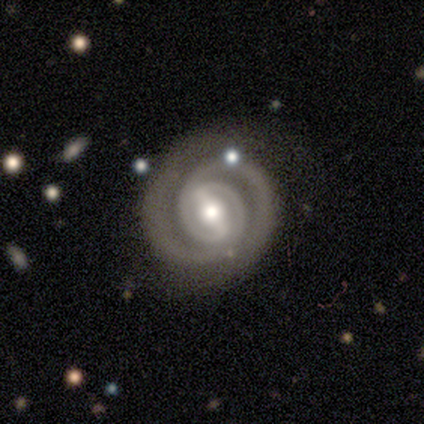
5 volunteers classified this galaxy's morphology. A featured or disk galaxy (100%) with a strong bar (80%), 2 (100%) tight (80%) spiral arms (100%) and a moderate central bulge (80%).

Vote fractions:
- Smooth or featured? featured or disk: 100% / smooth: 0% / star or artifact: 0%
- Edge-on disk? no: 100% / yes: 0%
- Bar? strong: 80% / weak: 20% / no: 0%
- Spiral arms? yes: 100% / no: 0%
- Spiral winding? tight: 80% / medium: 20% / loose: 0%
- Spiral arm count? 2: 100% / 1: 0% / 3: 0% / 4: 0% / more than 4: 0% / can't tell: 0%
- Bulge size? moderate: 80% / small: 20% / dominant: 0% / large: 0% / none: 0%
- Merging? none: 60% / minor disturbance: 20% / merger: 20% / major disturbance: 0%